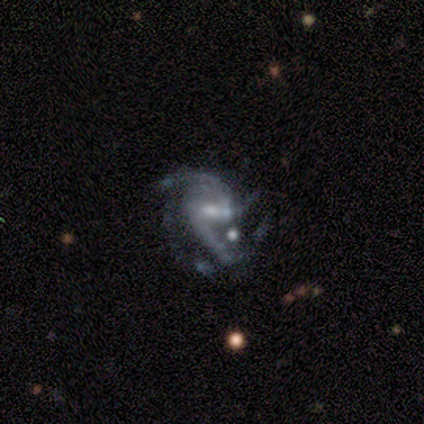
A featured or disk galaxy (100%) with a weak bar (80%), 2 (60%) medium (60%) spiral arms (100%) and a moderate central bulge (60%).

Vote fractions:
- Smooth or featured? featured or disk: 100% / smooth: 0% / star or artifact: 0%
- Edge-on disk? no: 100% / yes: 0%
- Bar? weak: 80% / strong: 20% / no: 0%
- Spiral arms? yes: 100% / no: 0%
- Spiral winding? medium: 60% / tight: 20% / loose: 20%
- Spiral arm count? 2: 60% / 3: 20% / 4: 20% / 1: 0% / more than 4: 0% / can't tell: 0%
- Bulge size? moderate: 60% / none: 40% / dominant: 0% / large: 0% / small: 0%
- Merging? none: 40% (tied) / merger: 40% (tied) / major disturbance: 20% / minor disturbance: 0%